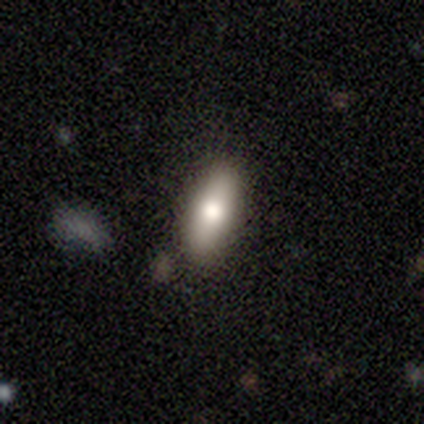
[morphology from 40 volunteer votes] This appears to be a smooth galaxy with no disk features (70%) that is in between round and cigar-shaped (64%). Merging: none (83%).